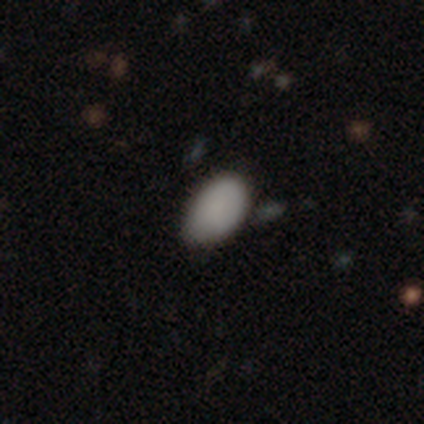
smooth-or-featured: smooth: 100% | featured or disk: 0% | star or artifact: 0%
  how-rounded: in between: 100% | round: 0% | cigar-shaped: 0%
  merging: none: 50% | minor disturbance: 33% | major disturbance: 17% | merger: 0%